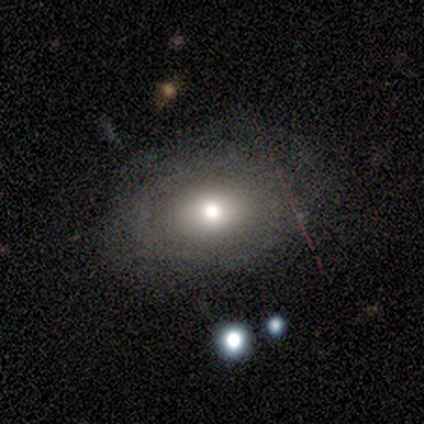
Q: Smooth or featured?
A: smooth (75%); runner-up: featured or disk (25%)
Q: How rounded?
A: in between (67%); runner-up: round (33%)
Q: Merging?
A: none (75%); runner-up: major disturbance (25%)